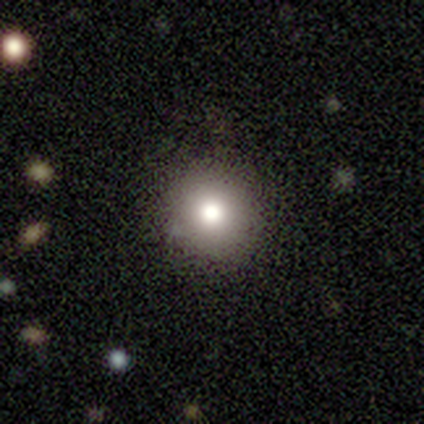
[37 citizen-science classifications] Smooth or featured? 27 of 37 (73%) said smooth. How rounded? 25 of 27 (93%) said round. Merging? 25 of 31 (81%) said none.